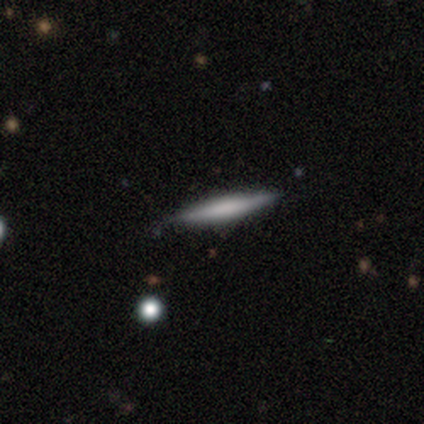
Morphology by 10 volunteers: Volunteers were most divided on "smooth or featured": smooth: 70%, featured or disk: 30%, star or artifact: 0%. More confident: merging — none (90%); how rounded — cigar-shaped (86%).